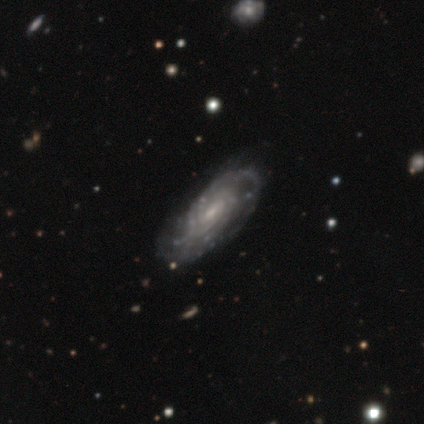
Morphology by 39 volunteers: smooth-or-featured: featured or disk: 92% | smooth: 5% | star or artifact: 3%
  disk-edge-on: no: 97% | yes: 3%
    bar: weak: 54% | no: 37% | strong: 9%
    has-spiral-arms: yes: 100% | no: 0%
      spiral-winding: tight: 63% | medium: 34% | loose: 3%
      spiral-arm-count: 3: 40% | can't tell: 31% | 2: 11% | 4: 9% | more than 4: 6% | 1: 3%
    bulge-size: small: 80% | moderate: 17% | none: 3% | dominant: 0% | large: 0%
  merging: none: 76% | minor disturbance: 18% | major disturbance: 3% | merger: 3%